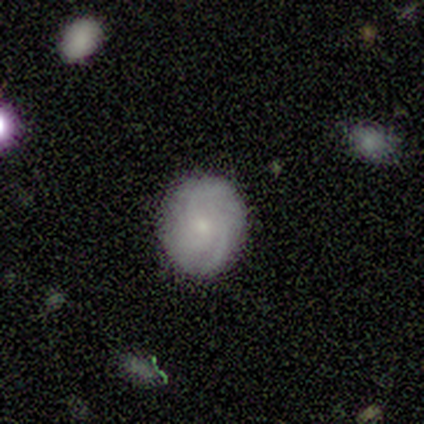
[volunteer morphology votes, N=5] Overall: smooth (60%; featured or disk 20%). How rounded: in between (67%; round 33%). Merging: none (100%).